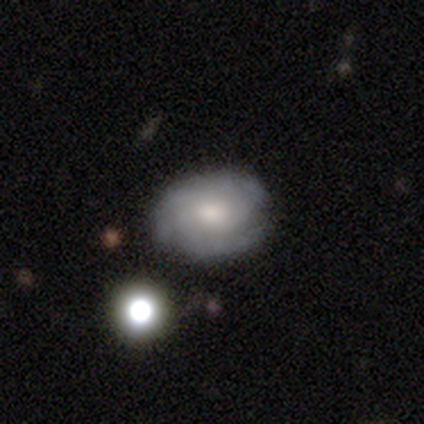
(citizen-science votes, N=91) This is possibly a featured or disk galaxy (59%). It is clearly not viewed edge-on (98%). Bar: likely no (75%). Spiral arm pattern: clearly yes (91%). Spiral arm count: marginally can't tell (40%). Spiral winding: possibly medium (56%). Central bulge: possibly moderate (57%). Merging: likely none (78%).